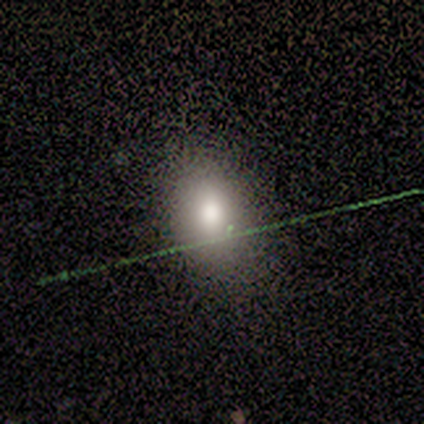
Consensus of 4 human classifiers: This is likely a smooth galaxy (75%). How rounded: likely in between (67%). Merging: likely none (67%).